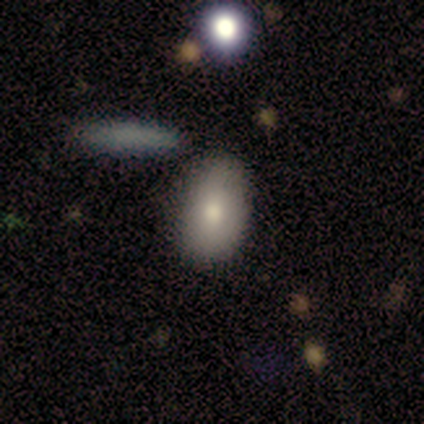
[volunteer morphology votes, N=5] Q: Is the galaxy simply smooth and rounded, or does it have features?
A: smooth — 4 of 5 (80%).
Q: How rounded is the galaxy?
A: in between — 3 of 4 (75%).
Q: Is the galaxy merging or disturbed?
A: none — 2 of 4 (50%).